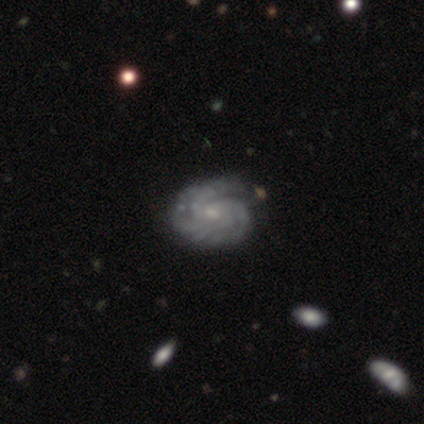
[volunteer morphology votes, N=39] Q: Smooth or featured?
A: featured or disk (85%); runner-up: smooth (10%)
Q: Edge-on disk?
A: no (100%)
Q: Bar?
A: no (79%); runner-up: weak (18%)
Q: Spiral arms?
A: yes (97%); runner-up: no (3%)
Q: Spiral winding?
A: tight (78%); runner-up: medium (22%)
Q: Spiral arm count?
A: 4 (44%); runner-up: can't tell (25%)
Q: Bulge size?
A: small (70%); runner-up: moderate (27%)
Q: Merging?
A: none (70%); runner-up: minor disturbance (11%)